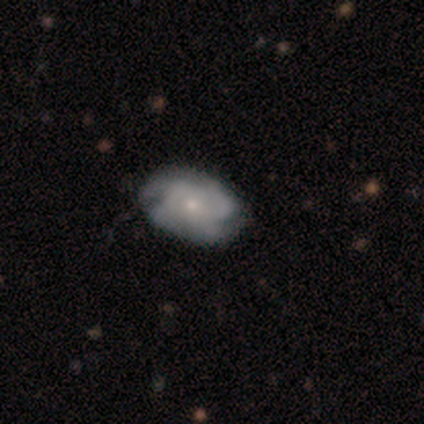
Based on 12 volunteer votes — A smooth galaxy with no disk features (50%) that is in between round and cigar-shaped (100%). Merging: none (91%).